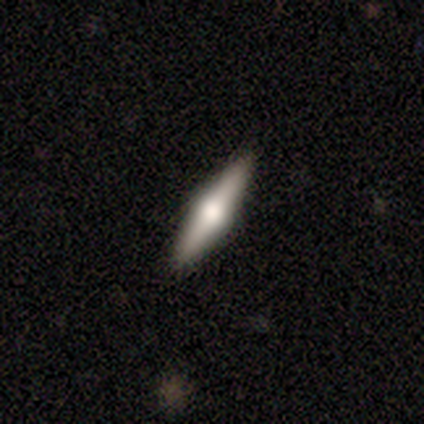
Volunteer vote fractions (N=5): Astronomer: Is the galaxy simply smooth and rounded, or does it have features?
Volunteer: smooth — 40%, tied with featured or disk at 40%.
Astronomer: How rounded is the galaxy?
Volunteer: cigar-shaped — 100%.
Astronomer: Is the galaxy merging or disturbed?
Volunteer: none — 100%.